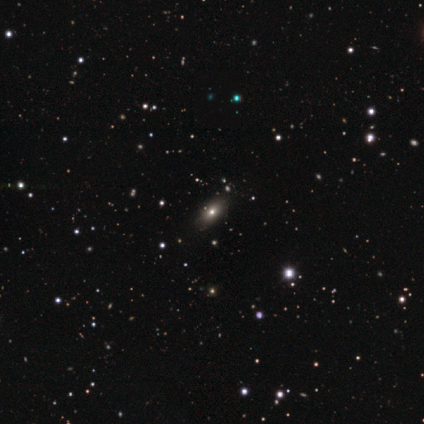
smooth 60%, featured or disk 40%, star or artifact 0%. Down the decision tree: how rounded — in between (100%); merging — none (100%).